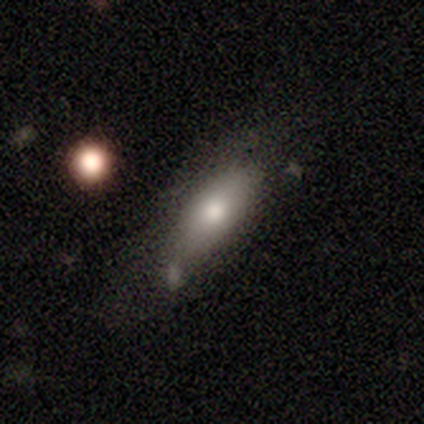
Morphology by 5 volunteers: type=smooth (100%); roundness=in between (40%, tied with cigar-shaped); merging=none (60%).